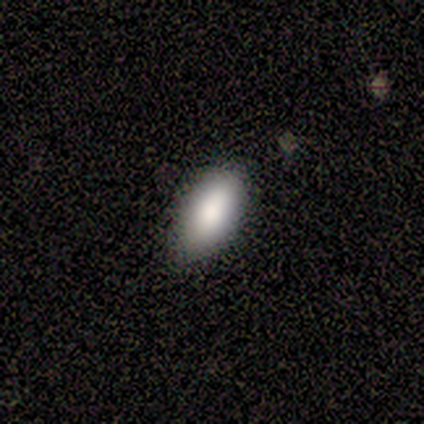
A smooth galaxy with no disk features (100%) that is in between round and cigar-shaped (80%). Merging: none (100%).